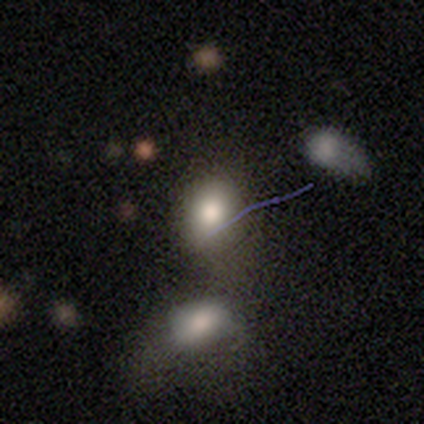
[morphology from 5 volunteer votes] Q: Smooth or featured?
A: smooth (80%); runner-up: featured or disk (20%)
Q: How rounded?
A: in between (100%)
Q: Merging?
A: none (60%); runner-up: merger (40%)